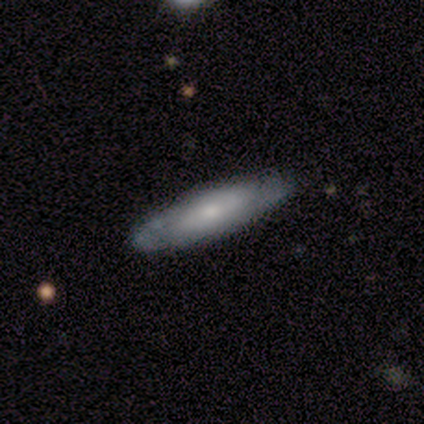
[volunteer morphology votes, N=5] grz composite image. It shows a featured or disk galaxy (80%) viewed edge-on (50%, tied with no) with a boxy central bulge (50%, tied with none). Merging: none (80%).